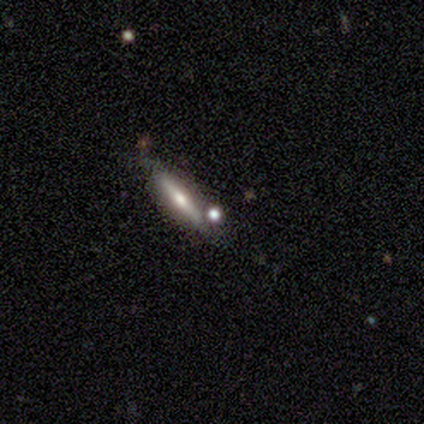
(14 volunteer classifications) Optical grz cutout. It shows a featured or disk galaxy (86%) viewed edge-on (92%) with a rounded central bulge (100%). Merging: none (77%).